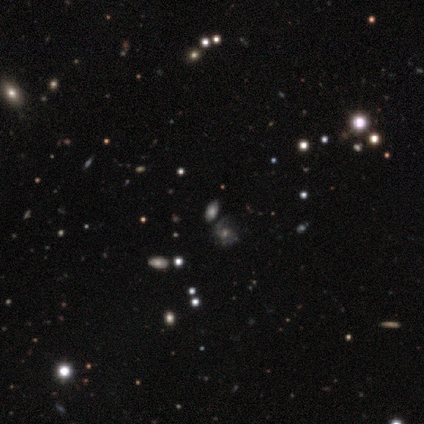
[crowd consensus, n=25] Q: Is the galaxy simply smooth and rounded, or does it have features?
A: smooth — 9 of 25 (36%, tied with featured or disk).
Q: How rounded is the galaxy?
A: in between — 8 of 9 (89%).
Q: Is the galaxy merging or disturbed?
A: none — 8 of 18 (44%).